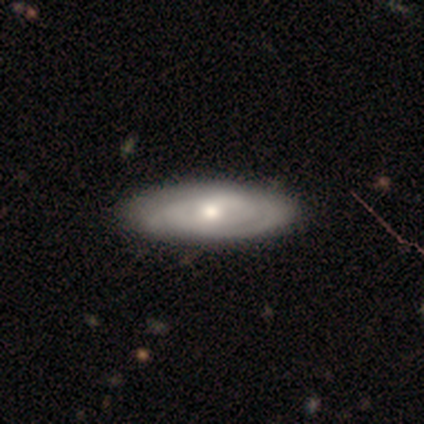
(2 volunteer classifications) A smooth galaxy with no disk features (50%, tied with featured or disk) that is cigar-shaped (100%).

Vote fractions:
- Smooth or featured? smooth: 50% (tied) / featured or disk: 50% (tied) / star or artifact: 0%
- How rounded? cigar-shaped: 100% / round: 0% / in between: 0%
- Merging? none: 50% (tied) / major disturbance: 50% (tied) / minor disturbance: 0% / merger: 0%